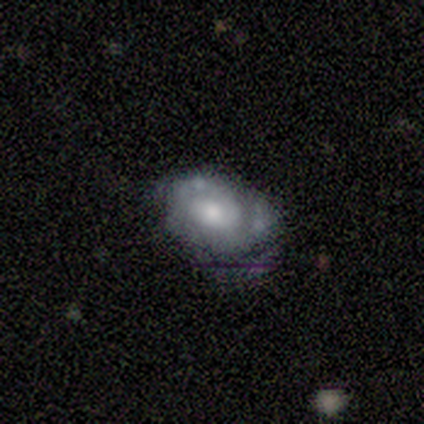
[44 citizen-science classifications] Smooth or featured? 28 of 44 (64%) said featured or disk. Edge-on disk? 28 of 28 (100%) said no. Bar? 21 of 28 (75%) said no. Spiral arms? 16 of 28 (57%) said yes. Spiral winding? 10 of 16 (62%) said tight. Spiral arm count? 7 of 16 (44%) said 2. Bulge size? 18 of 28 (64%) said moderate. Merging? 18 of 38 (47%) said none.